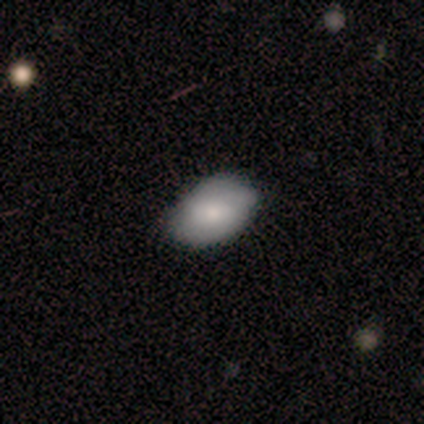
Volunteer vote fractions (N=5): Smooth or featured?
  - smooth: 60% *
  - featured or disk: 40%
  - star or artifact: 0%
How rounded?
  - in between: 100% *
  - round: 0%
  - cigar-shaped: 0%
Merging?
  - none: 80% *
  - minor disturbance: 20%
  - major disturbance: 0%
  - merger: 0%